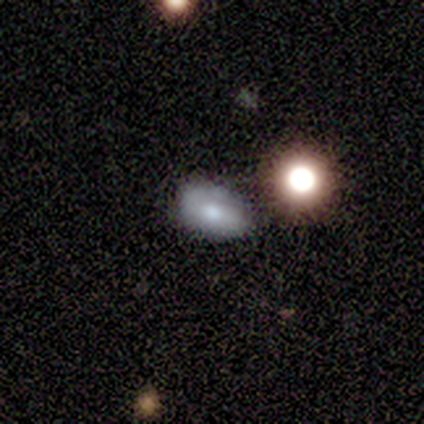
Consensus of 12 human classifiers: A smooth galaxy with no disk features (58%) that is in between round and cigar-shaped (100%).

Vote fractions:
- Smooth or featured? smooth: 58% / star or artifact: 25% / featured or disk: 17%
- How rounded? in between: 100% / round: 0% / cigar-shaped: 0%
- Merging? none: 78% / minor disturbance: 22% / major disturbance: 0% / merger: 0%